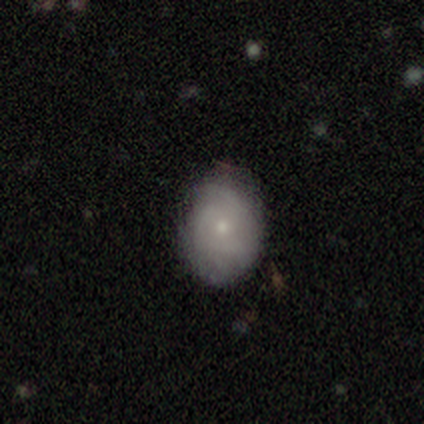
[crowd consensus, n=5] Morphology: type=featured or disk (60%); edge-on=no (100%); bar=no (67%); spiral arms=yes (67%); winding=tight (100%); arm count=can't tell (100%); bulge=small (67%); merging=none (50%).